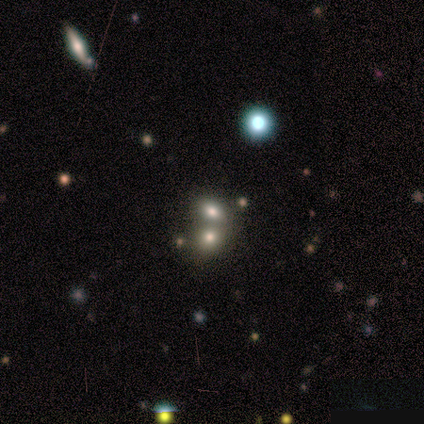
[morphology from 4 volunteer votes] smooth-or-featured: smooth: 100% | featured or disk: 0% | star or artifact: 0%
  how-rounded: in between: 100% | round: 0% | cigar-shaped: 0%
  merging: merger: 75% | none: 25% | minor disturbance: 0% | major disturbance: 0%